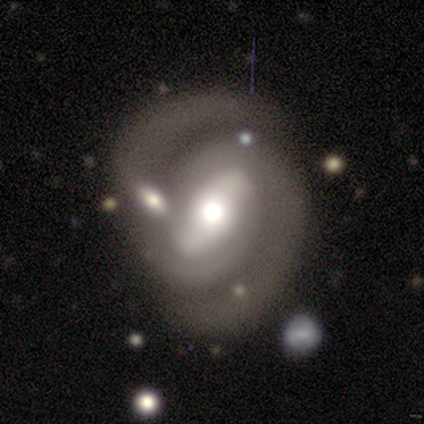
Smooth or featured? featured or disk (100%)
Edge-on disk? no (100%)
Bar? strong (60%)
Spiral arms? yes (100%)
Spiral winding? tight (80%)
Spiral arm count? 2 (100%)
Bulge size? large (40%, tied with moderate)
Merging? none (80%)